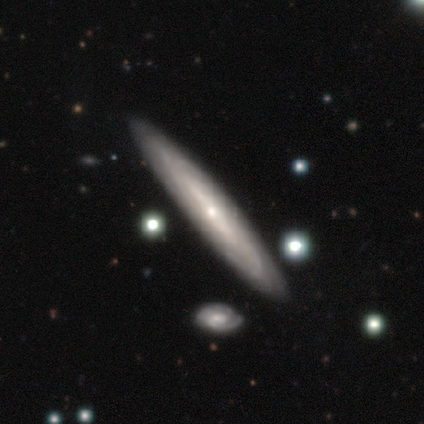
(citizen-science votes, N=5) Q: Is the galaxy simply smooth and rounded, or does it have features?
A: featured or disk — 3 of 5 (60%).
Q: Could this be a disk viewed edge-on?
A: no — 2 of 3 (67%).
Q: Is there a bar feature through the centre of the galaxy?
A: weak — 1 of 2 (50%, tied with no).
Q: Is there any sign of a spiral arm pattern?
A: yes — 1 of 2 (50%, tied with no).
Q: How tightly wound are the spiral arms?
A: loose — 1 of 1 (100%).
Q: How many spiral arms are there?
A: can't tell — 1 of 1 (100%).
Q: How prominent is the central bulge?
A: moderate — 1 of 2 (50%, tied with small).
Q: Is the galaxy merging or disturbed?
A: none — 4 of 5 (80%).